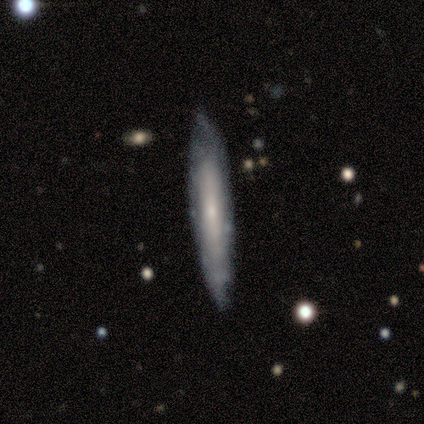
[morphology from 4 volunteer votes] A featured or disk galaxy (75%) viewed edge-on (100%) with no central bulge (67%). Merging: none (100%).